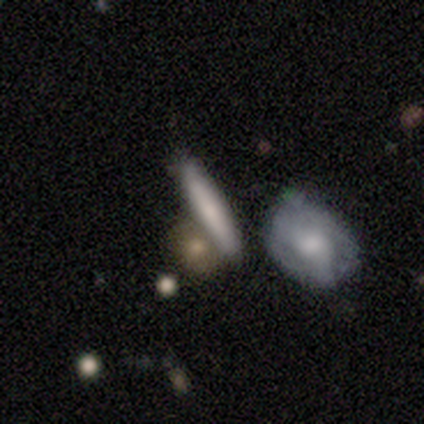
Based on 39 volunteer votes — Volunteers were most divided on "merging": none: 59%, merger: 27%, minor disturbance: 11%, major disturbance: 3%. More confident: how rounded — cigar-shaped (92%); smooth or featured — smooth (64%).